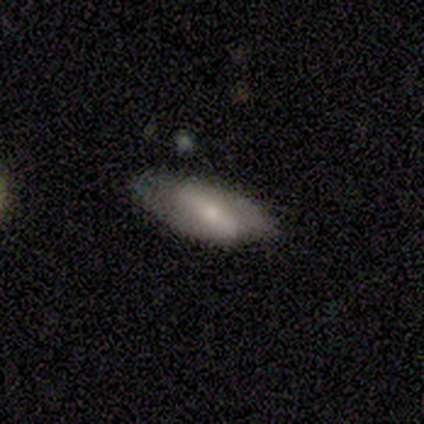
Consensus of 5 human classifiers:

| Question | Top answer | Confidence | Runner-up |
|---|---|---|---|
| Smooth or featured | smooth | 60% | featured or disk (40%) |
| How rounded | in between | 100% | — |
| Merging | none | 60% | minor disturbance (20%) |